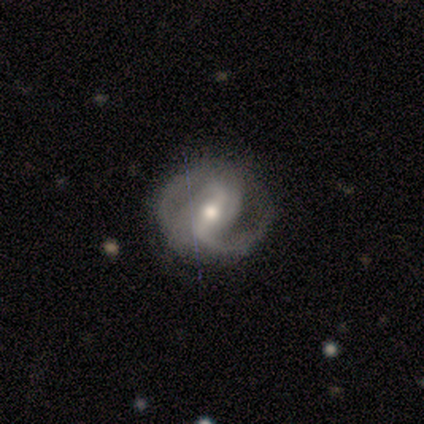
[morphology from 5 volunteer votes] A smooth galaxy with no disk features (40%, tied with featured or disk) that is round (50%, tied with in between). Merging: none (50%).